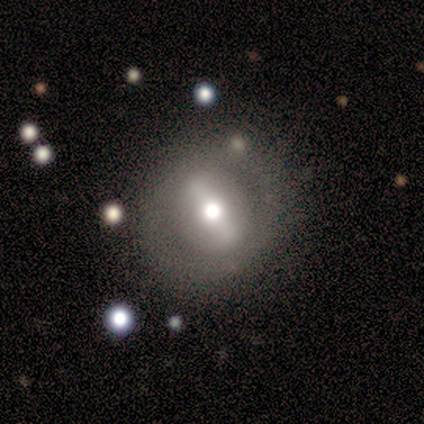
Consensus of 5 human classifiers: smooth_or_featured: smooth (p=0.60) [alt: featured or disk p=0.40]
how_rounded: round (p=1.00)
merging: none (p=0.80) [alt: minor disturbance p=0.20]